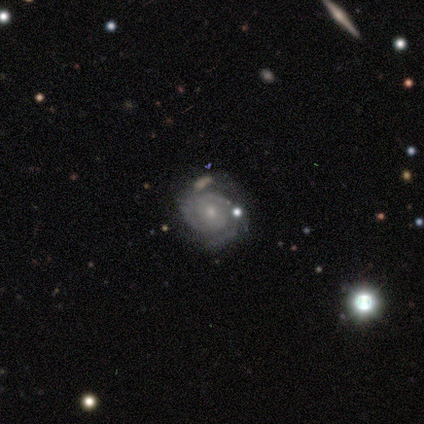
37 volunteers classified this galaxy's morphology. A featured or disk galaxy (86%) with no bar (72%), 2 (43%) tight (68%) spiral arms (88%) and a small central bulge (72%). Merging: none (75%).